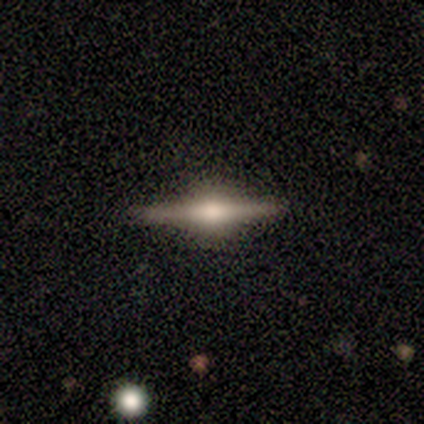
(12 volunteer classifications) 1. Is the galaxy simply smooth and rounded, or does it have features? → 92% featured or disk, 8% smooth, 0% star or artifact.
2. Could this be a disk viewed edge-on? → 100% yes, 0% no.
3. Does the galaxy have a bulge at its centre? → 100% rounded, 0% boxy, 0% none.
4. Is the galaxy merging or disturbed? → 100% none, 0% minor disturbance, 0% major disturbance, 0% merger.